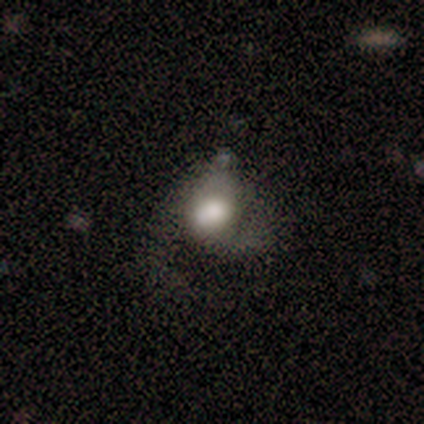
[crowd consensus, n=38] This appears to be a smooth galaxy with no disk features (45%, tied with featured or disk) that is in between round and cigar-shaped (59%). Merging: minor disturbance (50%).